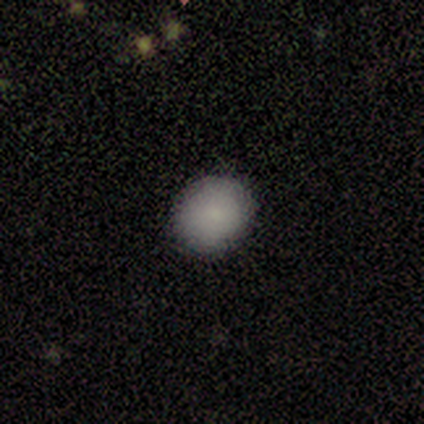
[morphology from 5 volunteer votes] Volunteers were most divided on "how rounded": round: 80%, in between: 20%, cigar-shaped: 0%. More confident: smooth or featured — smooth (100%); merging — none (100%).